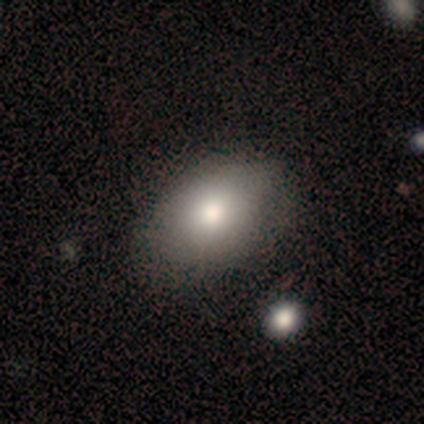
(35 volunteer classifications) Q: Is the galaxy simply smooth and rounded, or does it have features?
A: smooth — 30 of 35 (86%).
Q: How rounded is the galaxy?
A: in between — 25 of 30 (83%).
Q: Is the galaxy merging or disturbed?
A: none — 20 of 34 (59%).